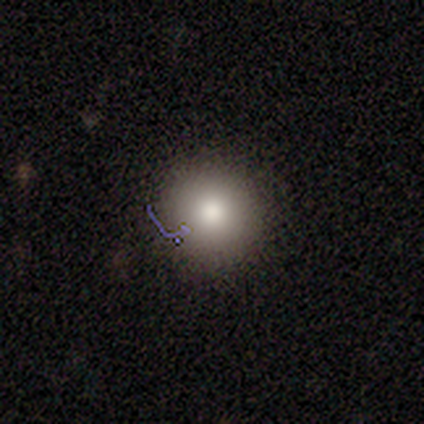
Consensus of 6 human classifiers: Q: Smooth or featured?
A: smooth (100%)
Q: How rounded?
A: round (100%)
Q: Merging?
A: none (100%)